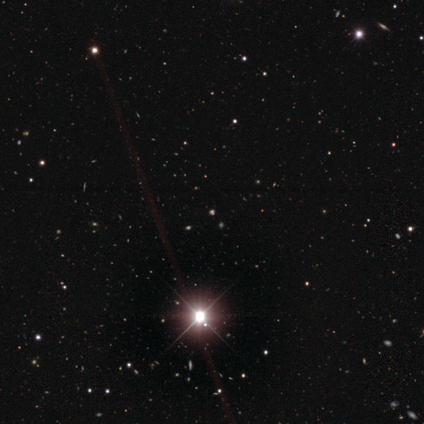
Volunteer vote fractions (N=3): Overall: star or artifact (67%; smooth 33%).